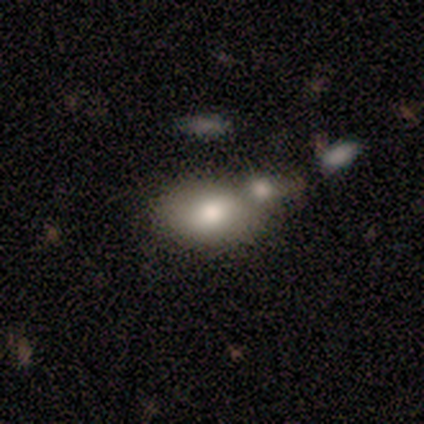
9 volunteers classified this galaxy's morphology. Overall: smooth (89%). How rounded: in between (88%). Merging: none (75%).